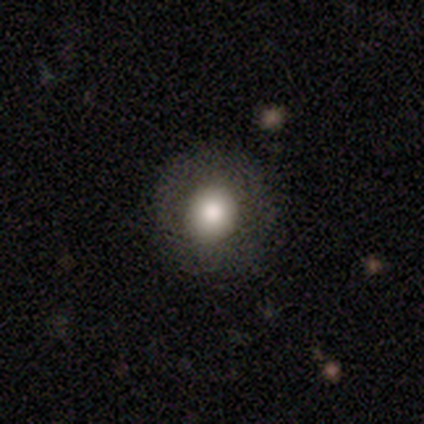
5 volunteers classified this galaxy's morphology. Q: Smooth or featured?
A: smooth (60%); runner-up: featured or disk (40%)
Q: How rounded?
A: round (100%)
Q: Merging?
A: none (100%)